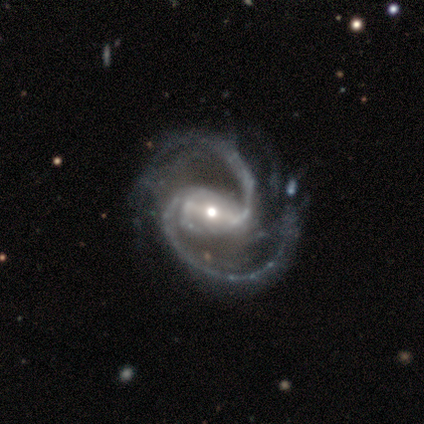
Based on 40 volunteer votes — A featured or disk galaxy (100%) with a strong bar (72%), 2 (95%) medium (65%) spiral arms (100%) and a small central bulge (48%).

Vote fractions:
- Smooth or featured? featured or disk: 100% / smooth: 0% / star or artifact: 0%
- Edge-on disk? no: 100% / yes: 0%
- Bar? strong: 72% / weak: 25% / no: 2%
- Spiral arms? yes: 100% / no: 0%
- Spiral winding? medium: 65% / tight: 18% / loose: 18%
- Spiral arm count? 2: 95% / 3: 2% / can't tell: 2% / 1: 0% / 4: 0% / more than 4: 0%
- Bulge size? small: 48% / moderate: 42% / large: 5% / dominant: 2% / none: 2%
- Merging? none: 50% / minor disturbance: 18% / major disturbance: 15% / merger: 0%